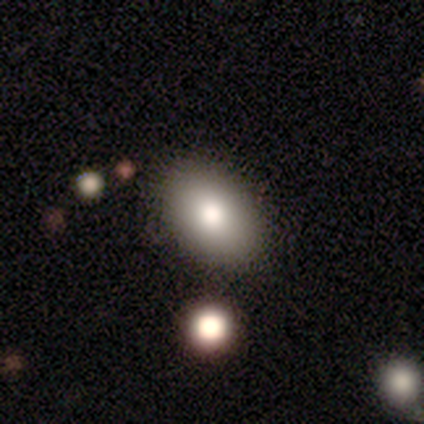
A smooth galaxy with no disk features (100%) that is in between round and cigar-shaped (100%). Merging: none (100%).